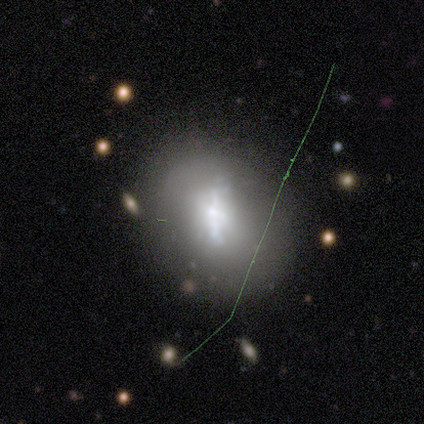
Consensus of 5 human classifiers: This is likely a featured or disk galaxy (60%). It is clearly not viewed edge-on (100%). Bar: likely weak (67%). Spiral arm pattern: clearly no (100%). Central bulge: marginally large (33%, tied with small and none). Merging: clearly none (80%).